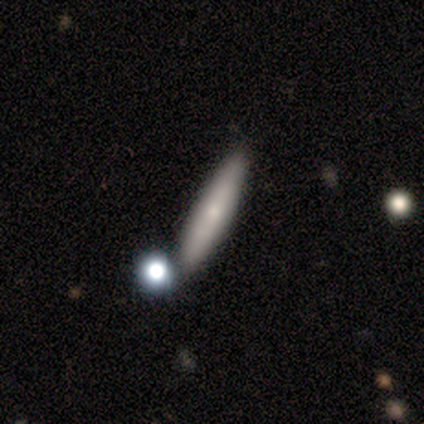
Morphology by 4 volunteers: Volunteers were most divided on "smooth or featured": smooth: 75%, featured or disk: 25%, star or artifact: 0%. More confident: how rounded — cigar-shaped (100%); merging — none (100%).